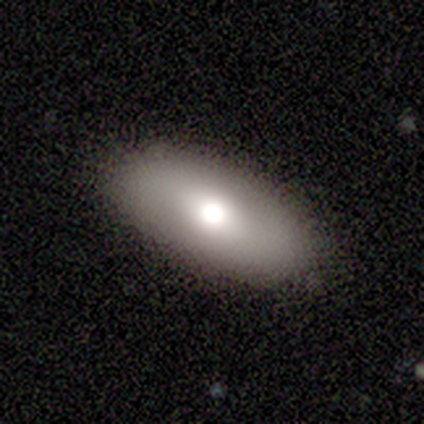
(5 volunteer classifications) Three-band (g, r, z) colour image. It shows a featured or disk galaxy (60%) with no bar (100%), no spiral arms (100%) and a large central bulge (50%, tied with moderate). Merging: none (100%).